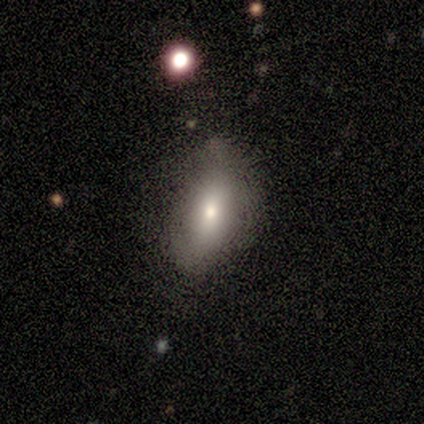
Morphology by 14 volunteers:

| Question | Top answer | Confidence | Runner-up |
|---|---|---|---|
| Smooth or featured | featured or disk | 57% | smooth (43%) |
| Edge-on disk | no | 62% | yes (38%) |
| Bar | no | 100% | — |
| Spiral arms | no | 80% | yes (20%) |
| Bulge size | small | 60% | moderate (40%) |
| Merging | none | 71% | minor disturbance (29%) |